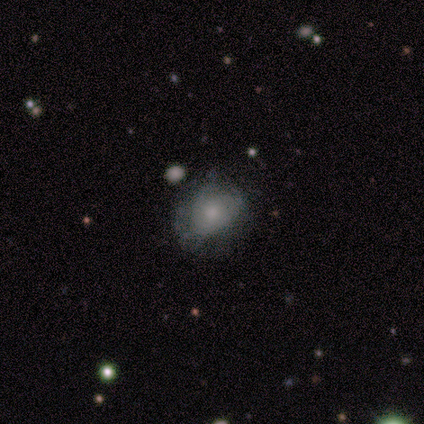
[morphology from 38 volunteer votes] Overall: featured or disk (50%; smooth 42%). Edge-on disk: no (95%). Bar: no (100%). Spiral arms: no (61%; yes 39%). Bulge size: small (50%; moderate 39%). Merging: none (49%; minor disturbance 34%).